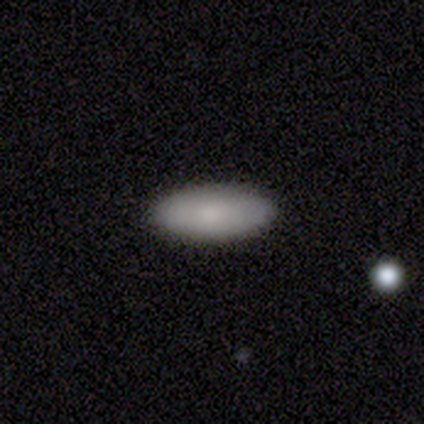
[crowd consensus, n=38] A smooth galaxy with no disk features (87%) that is in between round and cigar-shaped (97%).

Vote fractions:
- Smooth or featured? smooth: 87% / featured or disk: 8% / star or artifact: 5%
- How rounded? in between: 97% / cigar-shaped: 3% / round: 0%
- Merging? none: 89% / minor disturbance: 6% / major disturbance: 3% / merger: 3%